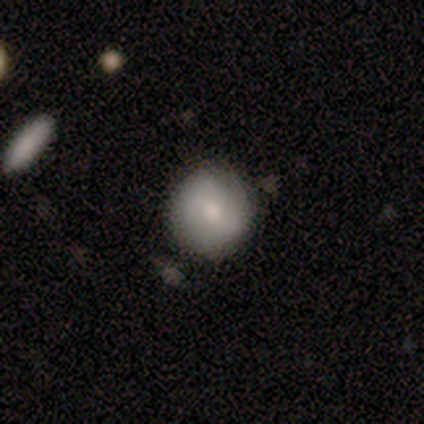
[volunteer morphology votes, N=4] Overall: smooth (100%). How rounded: round (100%). Merging: none (75%).